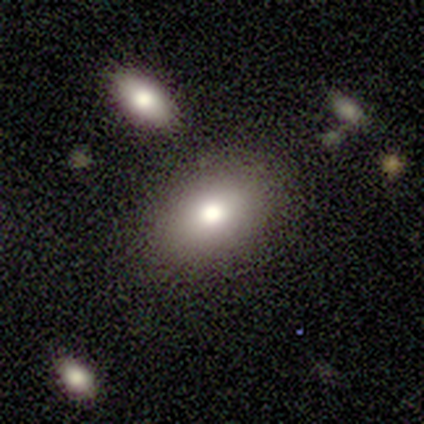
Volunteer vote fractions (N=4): Smooth or featured? smooth (75%)
How rounded? in between (67%)
Merging? none (75%)